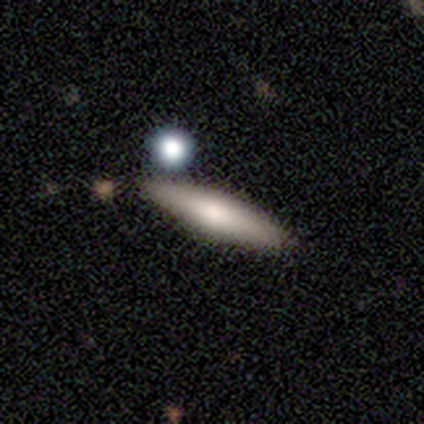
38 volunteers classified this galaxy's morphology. This appears to be a smooth galaxy with no disk features (58%) that is cigar-shaped (82%). Merging: none (82%).